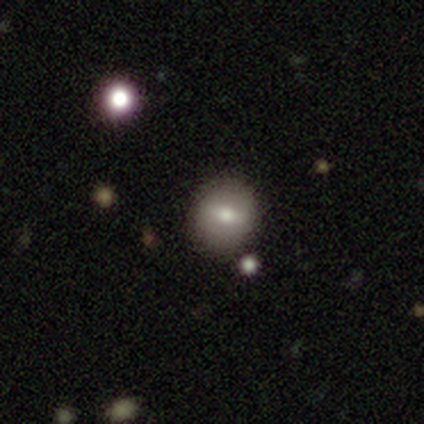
Morphology: type=smooth (80%); roundness=round (50%, tied with in between); merging=none (75%).